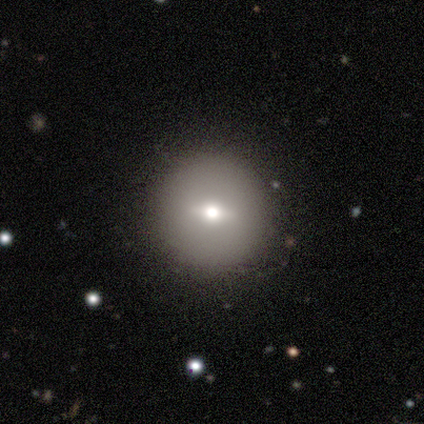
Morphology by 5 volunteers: Volunteers were most divided on "smooth or featured" (2-way tie): smooth: 40%, featured or disk: 40%, star or artifact: 20%. More confident: how rounded — round (100%); merging — none (100%).